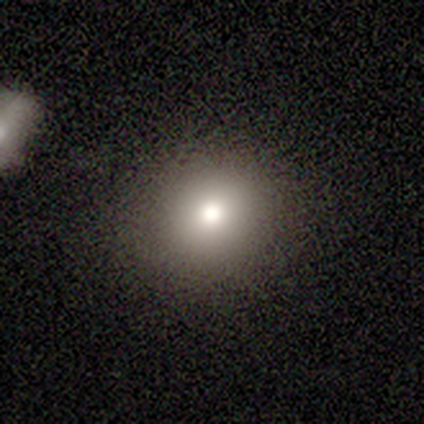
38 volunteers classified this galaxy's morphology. Smooth or featured: smooth — 79% (featured or disk — 11%)
How rounded: round — 90% (in between — 10%)
Merging: none — 97% (minor disturbance — 3%)